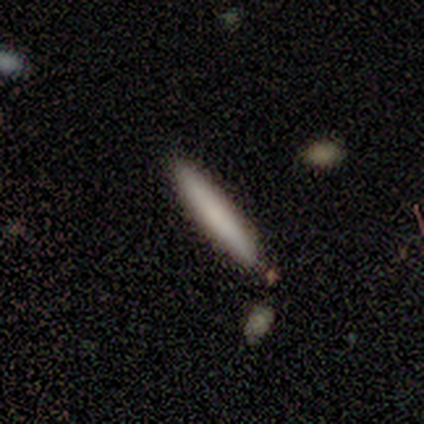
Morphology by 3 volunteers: smooth-or-featured: smooth: 100% | featured or disk: 0% | star or artifact: 0%
  how-rounded: cigar-shaped: 100% | round: 0% | in between: 0%
  merging: none: 100% | minor disturbance: 0% | major disturbance: 0% | merger: 0%